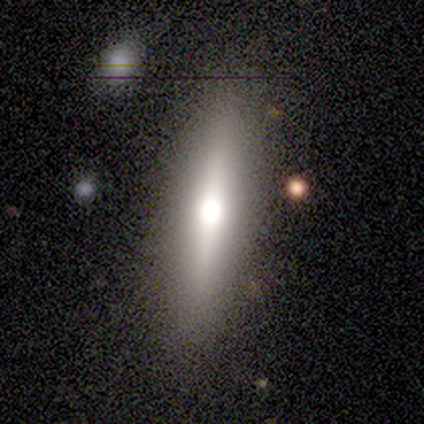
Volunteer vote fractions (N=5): This is likely a smooth galaxy (60%). How rounded: clearly cigar-shaped (100%). Merging: clearly none (80%).